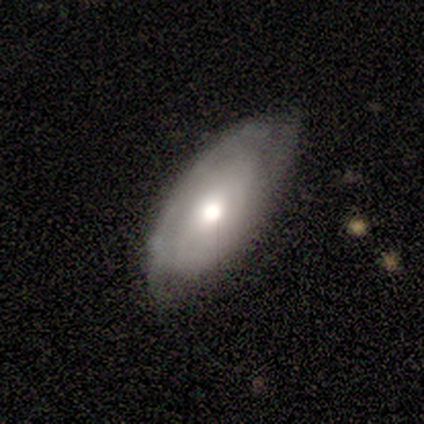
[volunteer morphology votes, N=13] Overall: smooth (62%; featured or disk 31%). How rounded: in between (88%). Merging: none (58%; minor disturbance 33%).